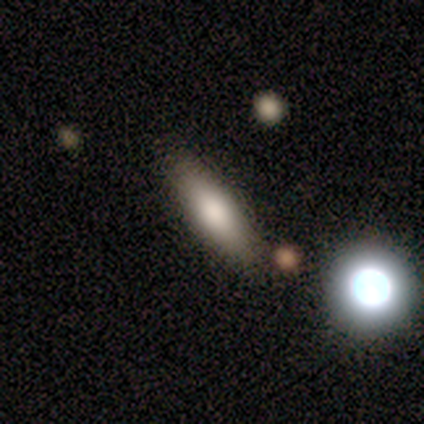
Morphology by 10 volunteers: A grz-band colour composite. It shows a smooth galaxy with no disk features (70%) that is cigar-shaped (57%). Merging: none (100%).